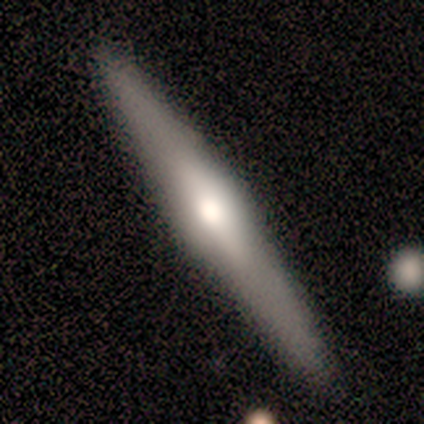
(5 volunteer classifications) This appears to be a featured or disk galaxy (100%) viewed edge-on (100%) with a rounded central bulge (80%). Merging: none (60%).